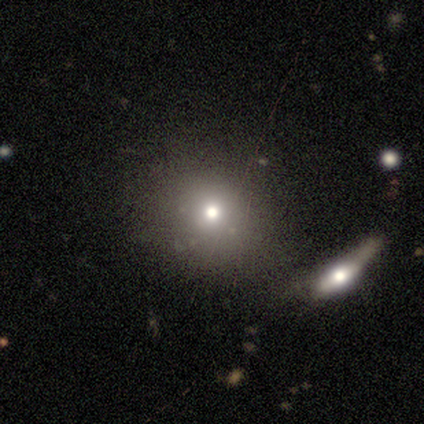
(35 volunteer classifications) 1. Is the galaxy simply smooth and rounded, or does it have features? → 69% smooth, 17% star or artifact, 14% featured or disk.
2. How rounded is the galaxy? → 88% round, 12% in between, 0% cigar-shaped.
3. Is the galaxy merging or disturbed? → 69% none, 14% minor disturbance, 14% merger, 3% major disturbance.